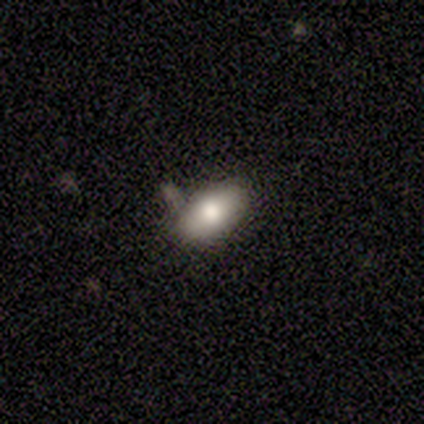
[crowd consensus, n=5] Smooth or featured?
  - smooth: 60% *
  - featured or disk: 20%
  - star or artifact: 20%
How rounded?
  - in between: 100% *
  - round: 0%
  - cigar-shaped: 0%
Merging?
  - none: 50% * (tied)
  - minor disturbance: 50% * (tied)
  - major disturbance: 0%
  - merger: 0%